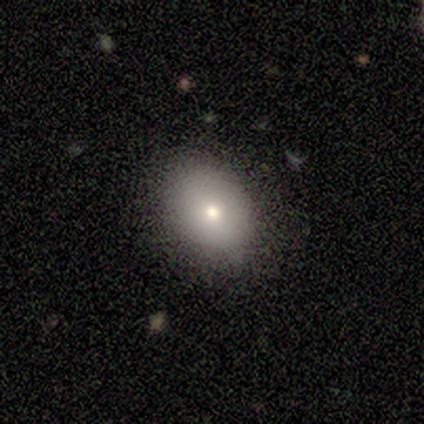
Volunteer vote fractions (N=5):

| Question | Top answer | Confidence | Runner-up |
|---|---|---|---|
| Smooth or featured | smooth | 60% | featured or disk (40%) |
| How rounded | in between | 67% | round (33%) |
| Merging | none | 80% | minor disturbance (20%) |